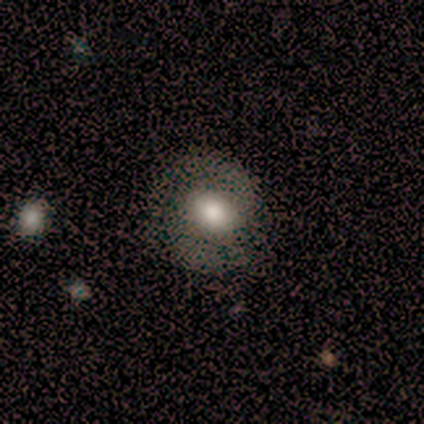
This appears to be a smooth galaxy with no disk features (53%) that is round (50%, tied with in between). Merging: none (73%).